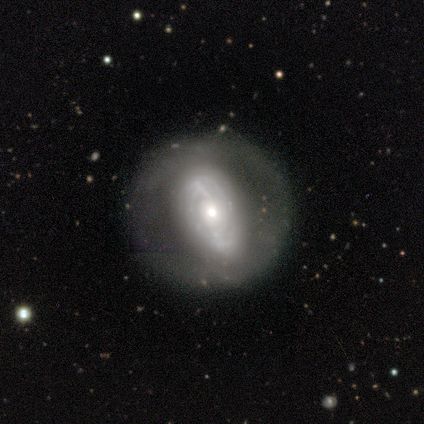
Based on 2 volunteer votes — featured or disk 50% (tied), star or artifact 50% (tied), smooth 0%. Down the decision tree: edge-on disk — no (100%); bar — weak (100%); spiral arms — no (100%); bulge size — small (100%); merging — none (100%).